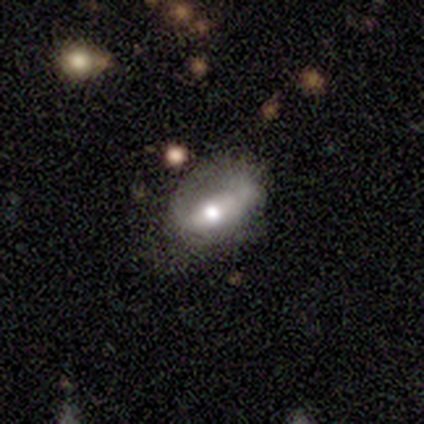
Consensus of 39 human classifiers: Q: Smooth or featured?
A: featured or disk (46%); runner-up: smooth (44%)
Q: Edge-on disk?
A: no (67%); runner-up: yes (33%)
Q: Bar?
A: strong (42%); tied with: weak (42%)
Q: Spiral arms?
A: no (83%); runner-up: yes (17%)
Q: Bulge size?
A: moderate (83%); runner-up: small (17%)
Q: Merging?
A: minor disturbance (46%); runner-up: none (29%)